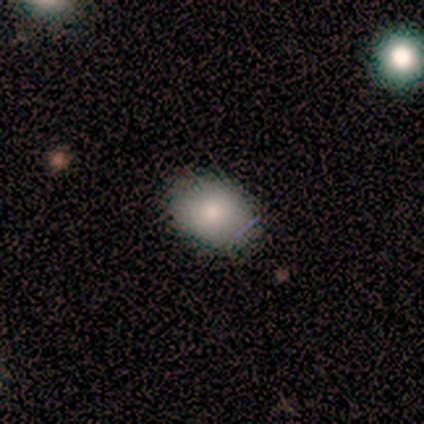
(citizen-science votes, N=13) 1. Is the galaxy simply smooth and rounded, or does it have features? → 69% smooth, 31% featured or disk, 0% star or artifact.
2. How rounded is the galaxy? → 89% in between, 11% round, 0% cigar-shaped.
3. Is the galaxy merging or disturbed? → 92% none, 8% minor disturbance, 0% major disturbance, 0% merger.